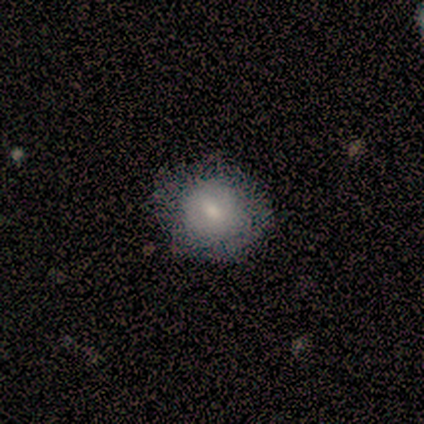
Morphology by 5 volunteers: type=smooth (80%); roundness=round (100%); merging=none (100%).